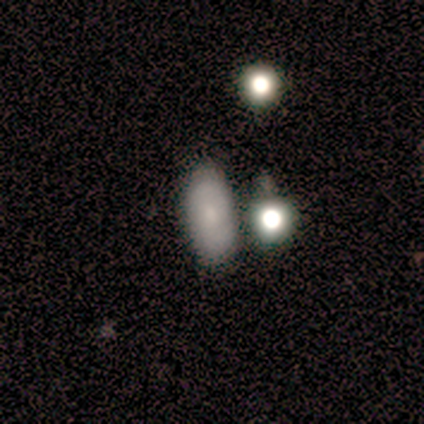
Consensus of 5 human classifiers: This appears to be a featured or disk galaxy (60%) with no bar (100%), 2 (50%, tied with can't tell) tight (50%, tied with loose) spiral arms (67%) and a small central bulge (100%). Merging: none (60%).